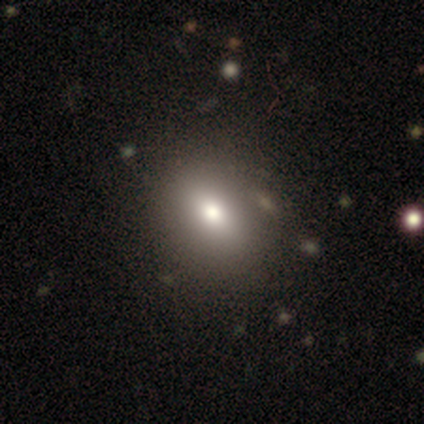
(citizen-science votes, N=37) smooth 73%, featured or disk 16%, star or artifact 11%. Down the decision tree: how rounded — in between (67%); merging — none (55%).